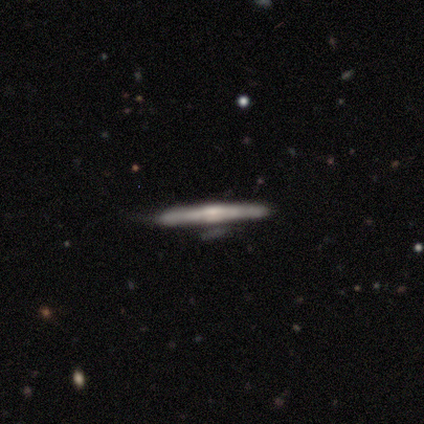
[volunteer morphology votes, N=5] Smooth or featured: featured or disk — 100%
Edge-on disk: yes — 100%
Edge-on bulge: boxy — 40% (tied with rounded — 40%)
Merging: minor disturbance — 80% (none — 20%)